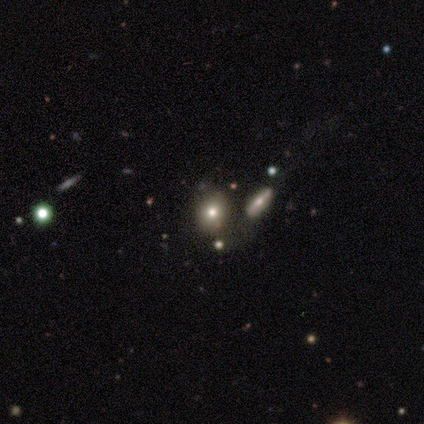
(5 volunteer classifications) Smooth or featured? featured or disk (60%)
Edge-on disk? no (100%)
Bar? no (100%)
Spiral arms? no (100%)
Bulge size? moderate (67%)
Merging? none (75%)